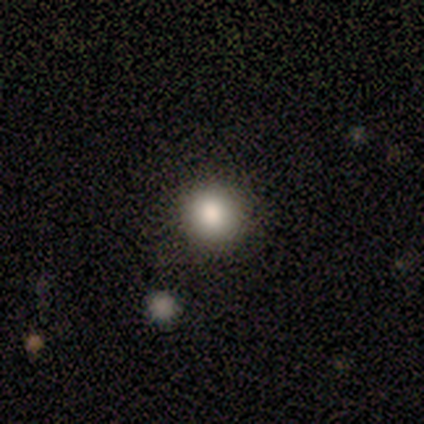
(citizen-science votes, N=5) This is clearly a smooth galaxy (80%). How rounded: likely round (75%). Merging: clearly none (100%).